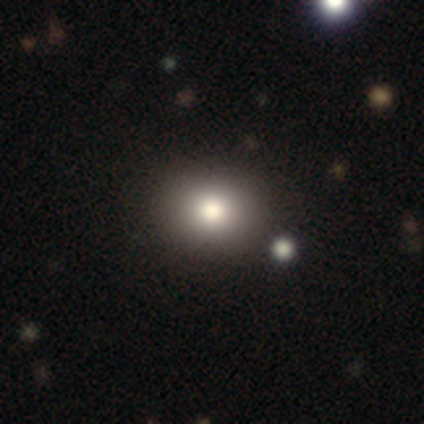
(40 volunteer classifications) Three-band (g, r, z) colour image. It shows a smooth galaxy with no disk features (78%) that is round (58%). Merging: none (86%).